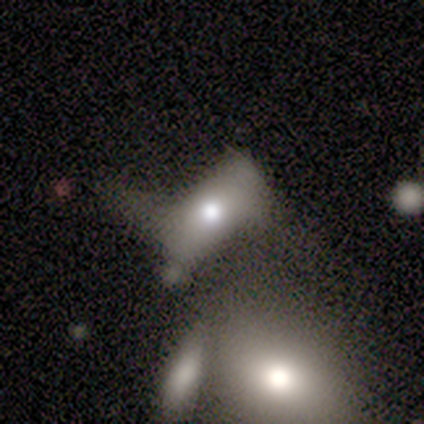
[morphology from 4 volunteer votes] Q: Smooth or featured?
A: smooth (75%); runner-up: star or artifact (25%)
Q: How rounded?
A: in between (100%)
Q: Merging?
A: major disturbance (67%); runner-up: merger (33%)